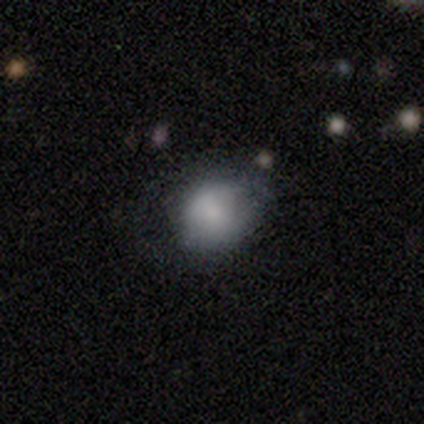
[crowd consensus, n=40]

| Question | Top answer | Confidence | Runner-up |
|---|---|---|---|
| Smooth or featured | smooth | 75% | featured or disk (22%) |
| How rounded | round | 70% | in between (30%) |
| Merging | none | 49% | minor disturbance (28%) |